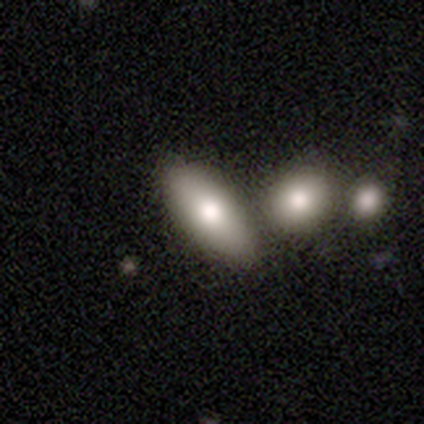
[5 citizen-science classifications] This appears to be a smooth galaxy with no disk features (100%) that is in between round and cigar-shaped (100%). Merging: none (100%).